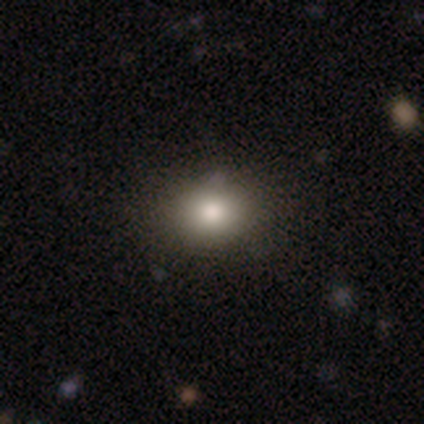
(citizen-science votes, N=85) This is likely a smooth galaxy (76%). How rounded: likely round (65%). Merging: clearly none (89%).